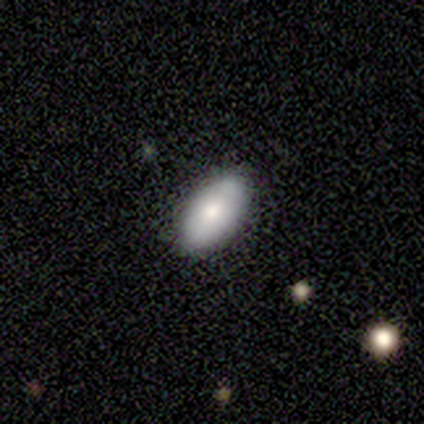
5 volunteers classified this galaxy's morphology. smooth-or-featured: smooth: 100% | featured or disk: 0% | star or artifact: 0%
  how-rounded: in between: 100% | round: 0% | cigar-shaped: 0%
  merging: none: 100% | minor disturbance: 0% | major disturbance: 0% | merger: 0%